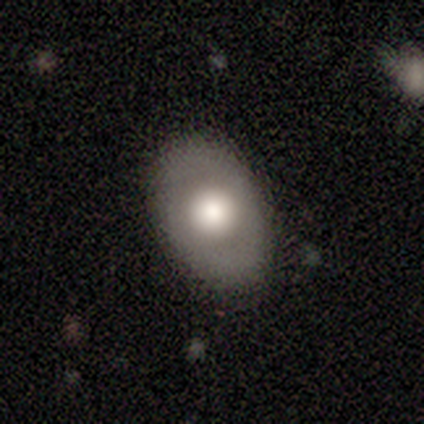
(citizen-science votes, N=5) smooth-or-featured: smooth: 80% | featured or disk: 20% | star or artifact: 0%
  how-rounded: in between: 100% | round: 0% | cigar-shaped: 0%
  merging: none: 100% | minor disturbance: 0% | major disturbance: 0% | merger: 0%